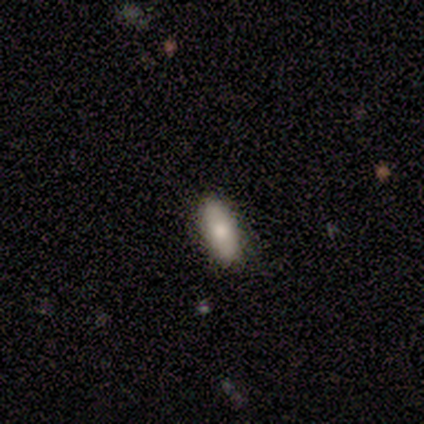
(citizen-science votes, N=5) Volunteers were most divided on "smooth or featured": smooth: 80%, featured or disk: 20%, star or artifact: 0%. More confident: how rounded — in between (100%); merging — none (100%).